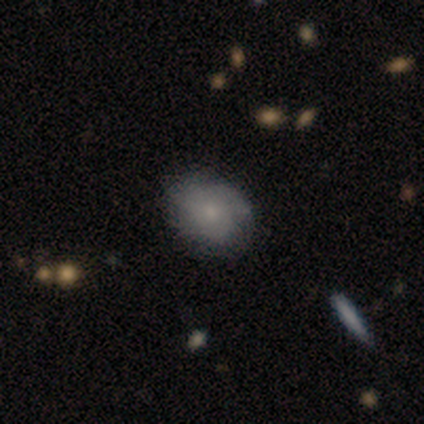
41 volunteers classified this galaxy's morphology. Q: Smooth or featured?
A: smooth (56%); runner-up: featured or disk (34%)
Q: How rounded?
A: round (48%); tied with: in between (48%)
Q: Merging?
A: none (81%); runner-up: minor disturbance (8%)